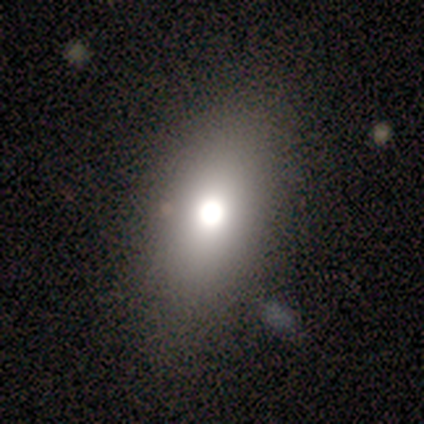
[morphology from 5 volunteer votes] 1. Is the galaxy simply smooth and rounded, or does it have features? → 100% smooth, 0% featured or disk, 0% star or artifact.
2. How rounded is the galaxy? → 80% in between, 20% round, 0% cigar-shaped.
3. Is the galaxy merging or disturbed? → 60% none, 20% major disturbance, 20% merger, 0% minor disturbance.